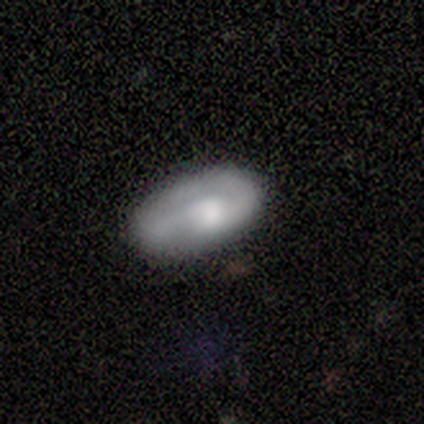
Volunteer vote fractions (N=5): smooth-or-featured: smooth: 60% | featured or disk: 40% | star or artifact: 0%
  how-rounded: in between: 100% | round: 0% | cigar-shaped: 0%
  merging: none: 40% (tied) | minor disturbance: 40% (tied) | major disturbance: 20% | merger: 0%